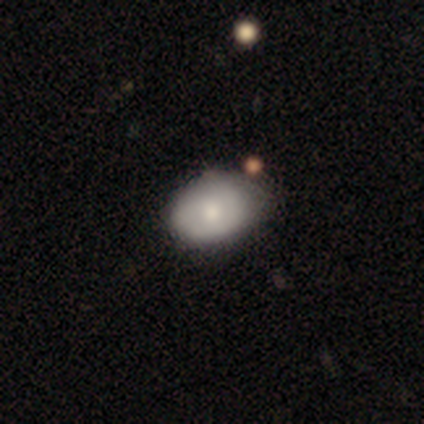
Smooth or featured?
  - smooth: 100% *
  - featured or disk: 0%
  - star or artifact: 0%
How rounded?
  - in between: 100% *
  - round: 0%
  - cigar-shaped: 0%
Merging?
  - none: 75% *
  - minor disturbance: 25%
  - major disturbance: 0%
  - merger: 0%